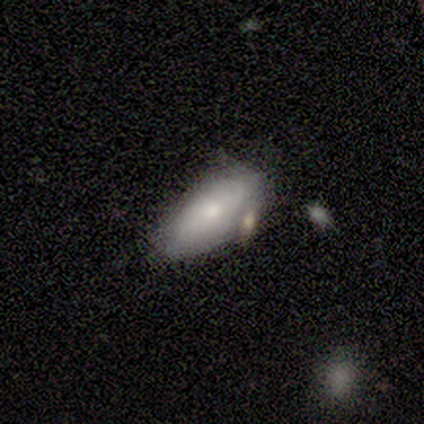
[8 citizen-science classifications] smooth_or_featured: smooth (p=0.88) [alt: featured or disk p=0.12]
how_rounded: in between (p=0.86) [alt: cigar-shaped p=0.14]
merging: none (p=0.62) [alt: minor disturbance p=0.25]